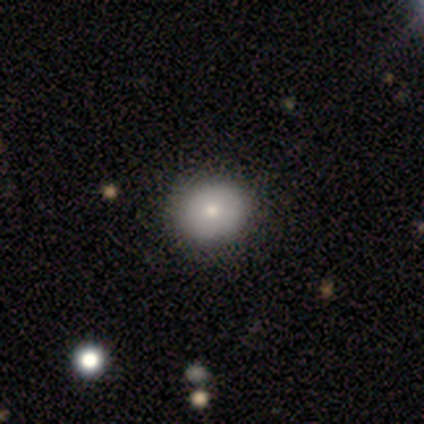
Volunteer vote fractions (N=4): Q: Smooth or featured?
A: featured or disk (75%); runner-up: smooth (25%)
Q: Edge-on disk?
A: no (100%)
Q: Bar?
A: no (100%)
Q: Spiral arms?
A: no (100%)
Q: Bulge size?
A: moderate (100%)
Q: Merging?
A: none (100%)